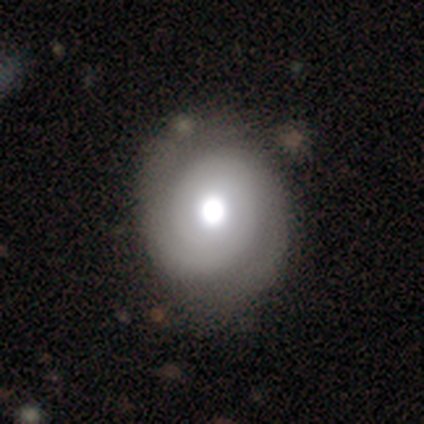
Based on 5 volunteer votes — This is clearly a smooth galaxy (80%). How rounded: likely round (75%). Merging: clearly none (100%).